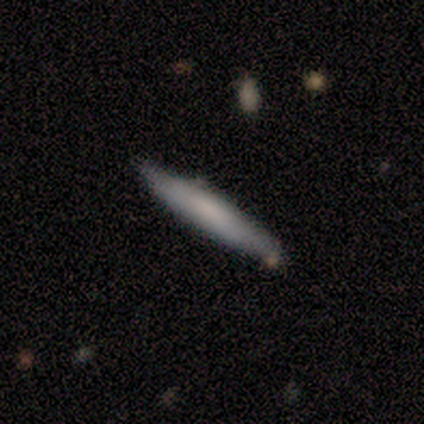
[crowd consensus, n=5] smooth 60%, featured or disk 40%, star or artifact 0%. Down the decision tree: how rounded — cigar-shaped (100%); merging — none (80%).